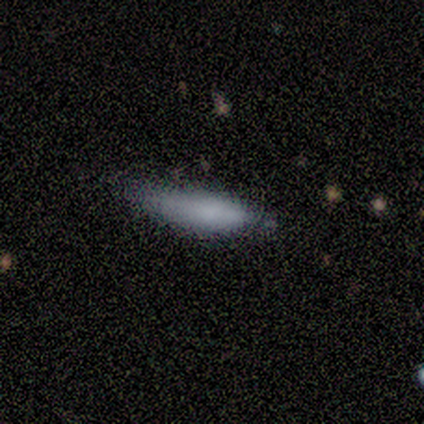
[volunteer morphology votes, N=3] Smooth or featured? 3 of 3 (100%) said smooth. How rounded? 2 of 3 (67%) said cigar-shaped. Merging? 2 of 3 (67%) said minor disturbance.